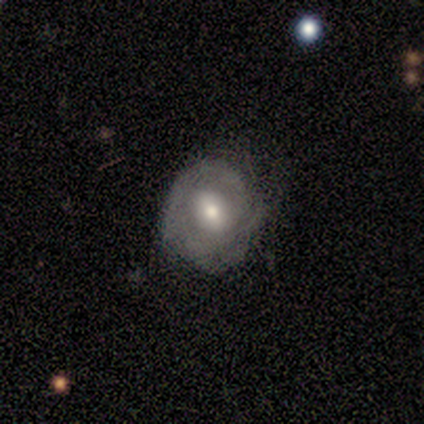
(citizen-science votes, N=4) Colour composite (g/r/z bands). It shows a smooth galaxy with no disk features (50%, tied with featured or disk) that is round (100%). Merging: none (50%, tied with minor disturbance).